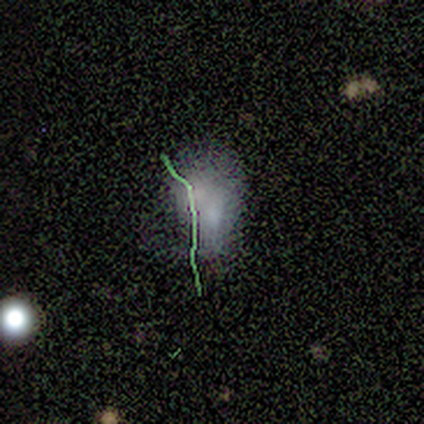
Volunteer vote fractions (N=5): This appears to be a smooth galaxy with no disk features (80%) that is in between round and cigar-shaped (100%). Merging: none (40%, tied with merger).